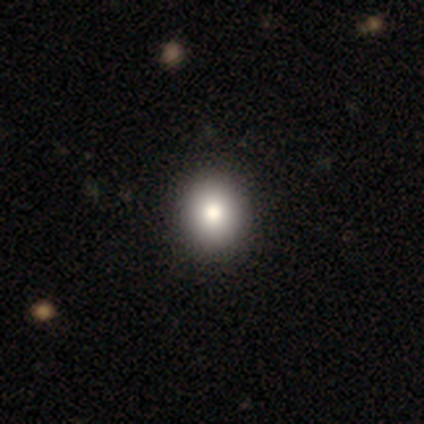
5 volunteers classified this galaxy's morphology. This is clearly a smooth galaxy (100%). How rounded: clearly round (80%). Merging: clearly none (80%).